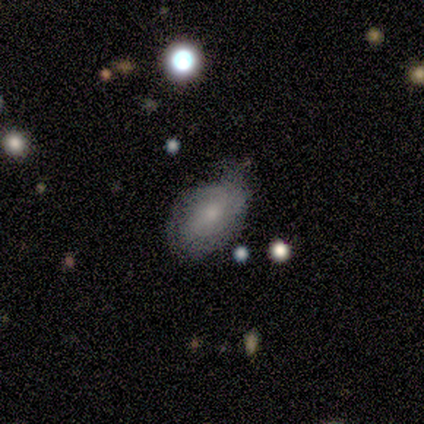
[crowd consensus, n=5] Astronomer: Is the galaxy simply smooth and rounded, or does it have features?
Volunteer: smooth — 80%.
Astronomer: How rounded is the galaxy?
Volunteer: in between — 100%.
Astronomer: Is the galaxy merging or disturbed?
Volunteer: none — 60% (runner-up: major disturbance, 40%).